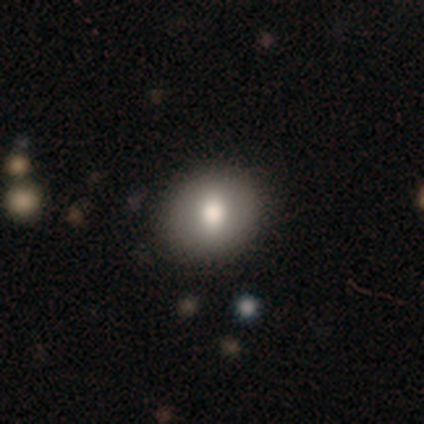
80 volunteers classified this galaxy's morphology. Overall: smooth (82%). How rounded: round (76%). Merging: none (48%).